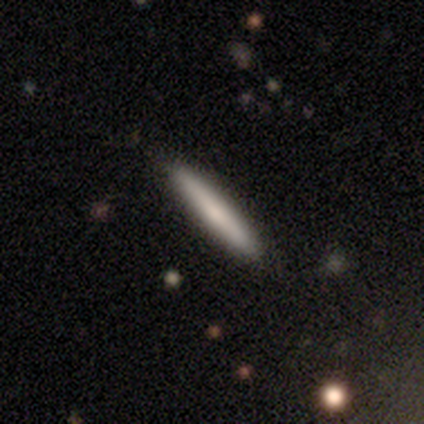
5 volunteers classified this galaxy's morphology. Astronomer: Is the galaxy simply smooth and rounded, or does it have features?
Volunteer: smooth — 80%.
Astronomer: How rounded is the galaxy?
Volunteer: cigar-shaped — 100%.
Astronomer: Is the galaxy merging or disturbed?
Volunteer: none — 100%.